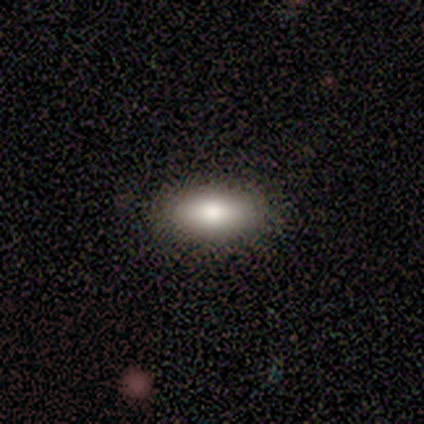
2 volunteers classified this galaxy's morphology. Smooth or featured? smooth (100%)
How rounded? in between (100%)
Merging? none (100%)